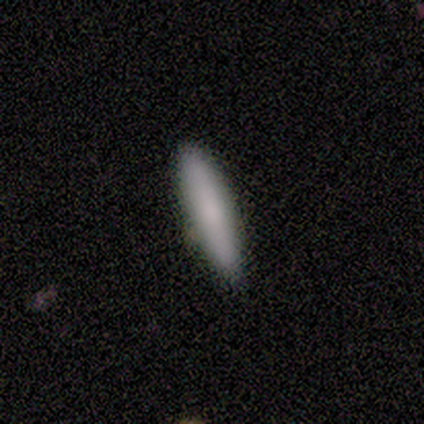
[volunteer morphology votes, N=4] This appears to be a smooth galaxy with no disk features (75%) that is cigar-shaped (100%). Merging: none (100%).